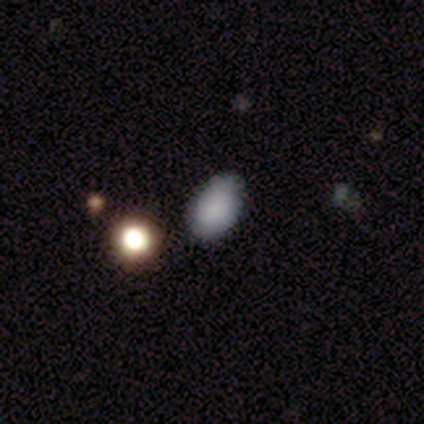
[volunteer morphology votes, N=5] This is clearly a smooth galaxy (80%). How rounded: possibly round (50%, tied with in between). Merging: clearly none (100%).